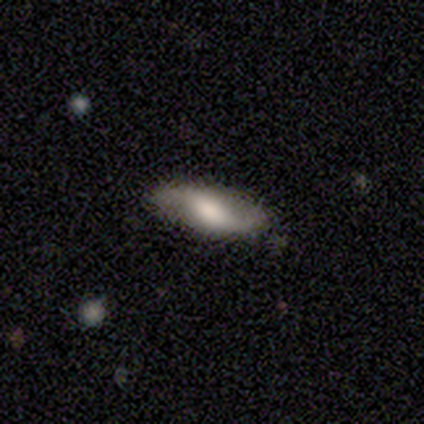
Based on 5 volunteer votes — A featured or disk galaxy (60%) with a weak bar (50%, tied with no), 2 (50%, tied with can't tell) tight (50%, tied with medium) spiral arms (100%) and a large central bulge (50%, tied with moderate).

Vote fractions:
- Smooth or featured? featured or disk: 60% / smooth: 40% / star or artifact: 0%
- Edge-on disk? no: 67% / yes: 33%
- Bar? weak: 50% (tied) / no: 50% (tied) / strong: 0%
- Spiral arms? yes: 100% / no: 0%
- Spiral winding? tight: 50% (tied) / medium: 50% (tied) / loose: 0%
- Spiral arm count? 2: 50% (tied) / can't tell: 50% (tied) / 1: 0% / 3: 0% / 4: 0% / more than 4: 0%
- Bulge size? large: 50% (tied) / moderate: 50% (tied) / dominant: 0% / small: 0% / none: 0%
- Merging? none: 100% / minor disturbance: 0% / major disturbance: 0% / merger: 0%